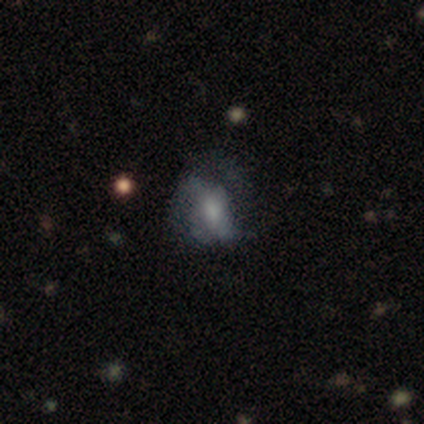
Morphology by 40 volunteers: This appears to be a featured or disk galaxy (55%) with no bar (55%), no spiral arms (55%) and a moderate central bulge (45%). Merging: none (57%).